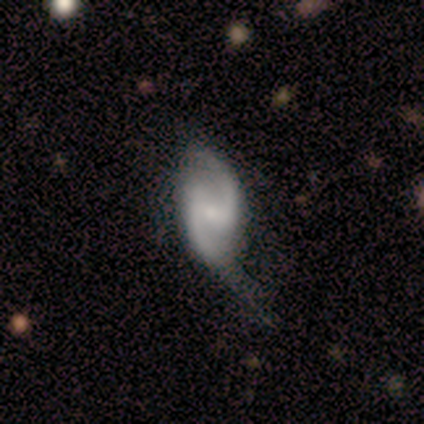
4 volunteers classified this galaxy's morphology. Smooth or featured?
  - featured or disk: 100% *
  - smooth: 0%
  - star or artifact: 0%
Edge-on disk?
  - no: 100% *
  - yes: 0%
Bar?
  - weak: 75% *
  - no: 25%
  - strong: 0%
Spiral arms?
  - yes: 75% *
  - no: 25%
Spiral winding?
  - medium: 67% *
  - tight: 33%
  - loose: 0%
Spiral arm count?
  - 2: 67% *
  - can't tell: 33%
  - 1: 0%
  - 3: 0%
  - 4: 0%
  - more than 4: 0%
Bulge size?
  - none: 50% *
  - moderate: 25%
  - small: 25%
  - dominant: 0%
  - large: 0%
Merging?
  - minor disturbance: 50% * (tied)
  - major disturbance: 50% * (tied)
  - none: 0%
  - merger: 0%